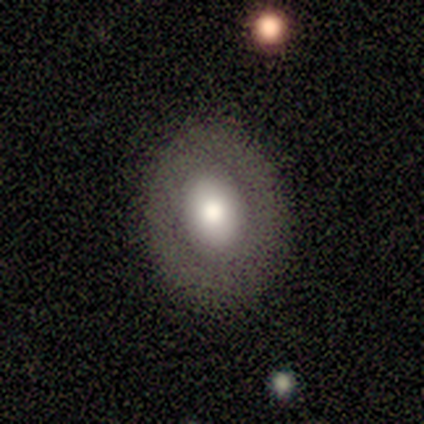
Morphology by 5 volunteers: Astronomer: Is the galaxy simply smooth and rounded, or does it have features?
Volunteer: smooth — 60% (runner-up: featured or disk, 40%).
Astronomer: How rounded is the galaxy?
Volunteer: round — 67%.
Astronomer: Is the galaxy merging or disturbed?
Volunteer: none — 80%.